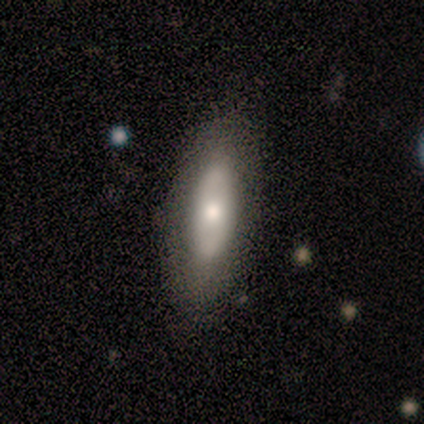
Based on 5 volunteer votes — Smooth or featured? smooth (80%)
How rounded? in between (100%)
Merging? none (100%)